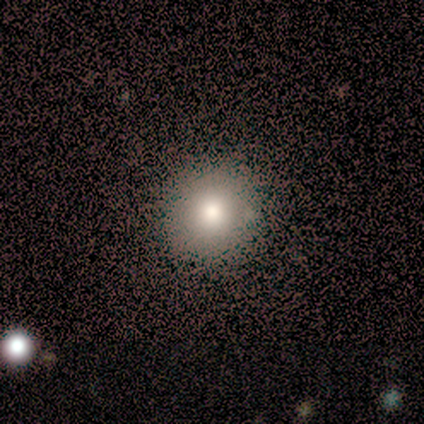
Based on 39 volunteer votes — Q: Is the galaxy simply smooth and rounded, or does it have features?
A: smooth — 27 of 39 (69%).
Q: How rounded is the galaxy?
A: round — 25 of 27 (93%).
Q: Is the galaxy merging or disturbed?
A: none — 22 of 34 (65%).